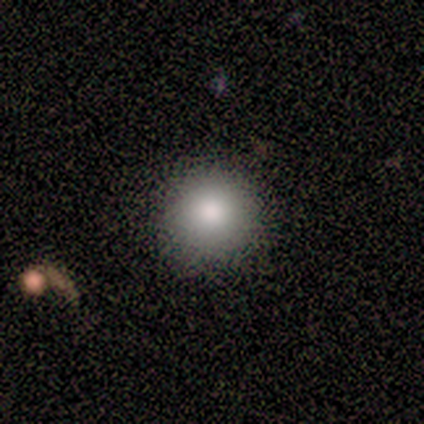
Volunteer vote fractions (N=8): Smooth or featured? smooth (75%)
How rounded? round (100%)
Merging? none (100%)